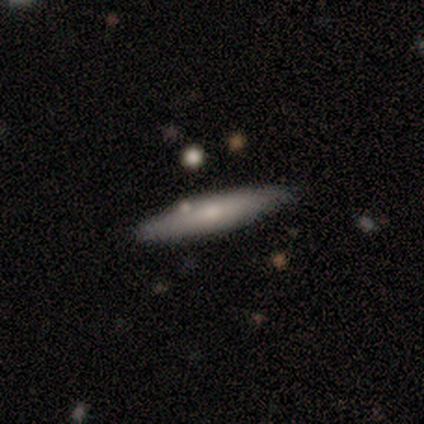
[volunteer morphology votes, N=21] smooth-or-featured: featured or disk: 52% | smooth: 48% | star or artifact: 0%
  disk-edge-on: yes: 64% | no: 36%
    edge-on-bulge: rounded: 71% | none: 29% | boxy: 0%
  merging: none: 67% | minor disturbance: 24% | major disturbance: 5% | merger: 5%